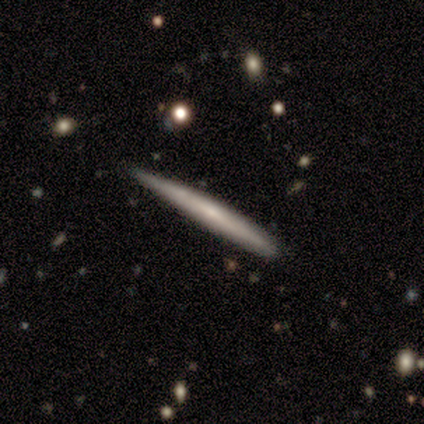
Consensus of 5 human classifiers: Smooth or featured? 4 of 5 (80%) said featured or disk. Edge-on disk? 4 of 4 (100%) said yes. Edge-on bulge? 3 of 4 (75%) said none. Merging? 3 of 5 (60%) said none.